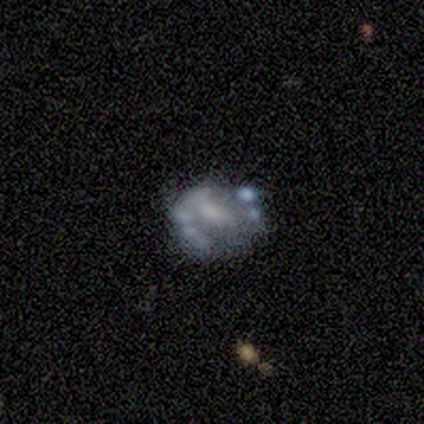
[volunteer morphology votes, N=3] Smooth or featured: featured or disk — 67% (smooth — 33%)
Edge-on disk: no — 100%
Bar: no — 100%
Spiral arms: no — 100%
Bulge size: none — 100%
Merging: none — 33% (tied with minor disturbance — 33%; major disturbance — 33%)